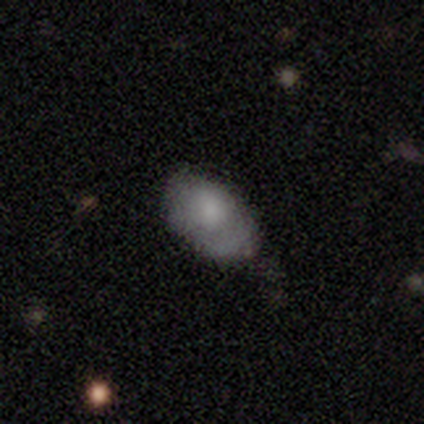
Volunteers were most divided on "smooth or featured": smooth: 80%, featured or disk: 20%, star or artifact: 0%. More confident: how rounded — in between (100%); merging — minor disturbance (80%).